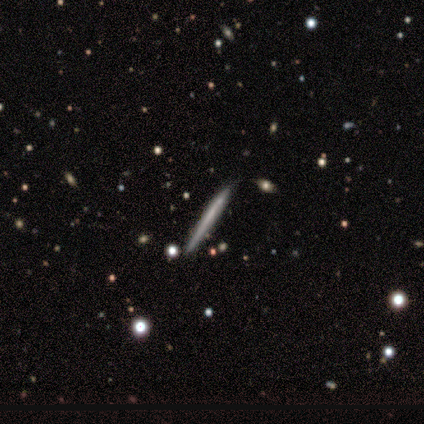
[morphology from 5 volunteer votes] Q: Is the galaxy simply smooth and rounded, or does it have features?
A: smooth — 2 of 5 (40%, tied with featured or disk).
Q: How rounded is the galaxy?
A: cigar-shaped — 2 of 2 (100%).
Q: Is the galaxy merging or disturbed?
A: none — 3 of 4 (75%).